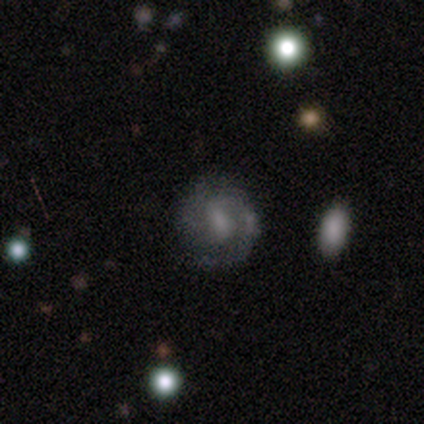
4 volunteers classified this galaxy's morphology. Smooth or featured? 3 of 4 (75%) said featured or disk. Edge-on disk? 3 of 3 (100%) said no. Bar? 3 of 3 (100%) said weak. Spiral arms? 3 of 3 (100%) said yes. Spiral winding? 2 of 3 (67%) said medium. Spiral arm count? 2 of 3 (67%) said 3. Bulge size? 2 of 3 (67%) said small. Merging? 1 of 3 (33%, tied with minor disturbance and major disturbance) said none.